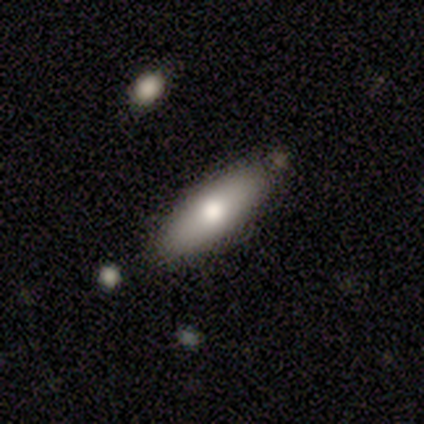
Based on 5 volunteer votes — Smooth or featured: smooth — 40% (tied with featured or disk — 40%)
How rounded: in between — 50% (tied with cigar-shaped — 50%)
Merging: none — 100%